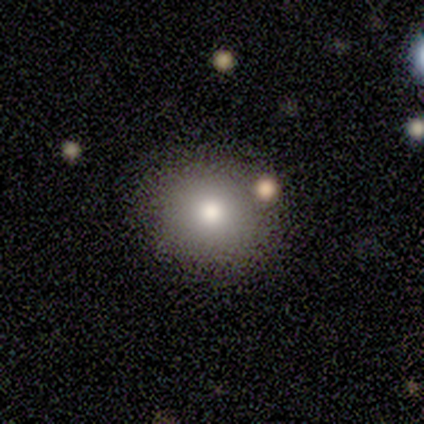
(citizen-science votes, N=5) Morphology: type=smooth (60%); roundness=round (100%); merging=none (100%).